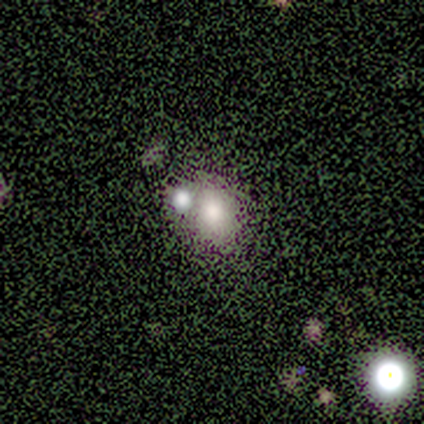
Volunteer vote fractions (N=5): Smooth or featured? 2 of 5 (40%, tied with star or artifact) said featured or disk. Edge-on disk? 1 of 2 (50%, tied with no) said yes. Edge-on bulge? 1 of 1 (100%) said rounded. Merging? 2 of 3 (67%) said merger.